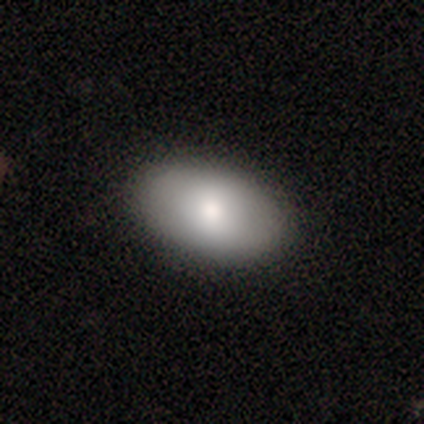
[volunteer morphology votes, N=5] This is clearly a smooth galaxy (100%). How rounded: clearly in between (100%). Merging: clearly none (100%).